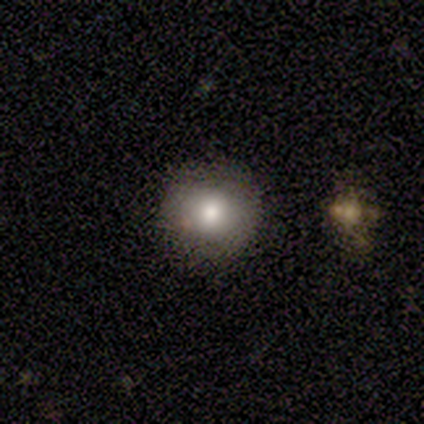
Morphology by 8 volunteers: Smooth or featured? 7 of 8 (88%) said smooth. How rounded? 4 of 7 (57%) said round. Merging? 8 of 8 (100%) said none.